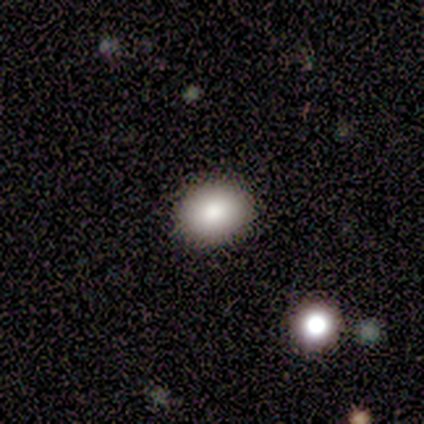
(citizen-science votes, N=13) Overall: smooth (92%). How rounded: round (50%, tied with in between). Merging: none (75%).